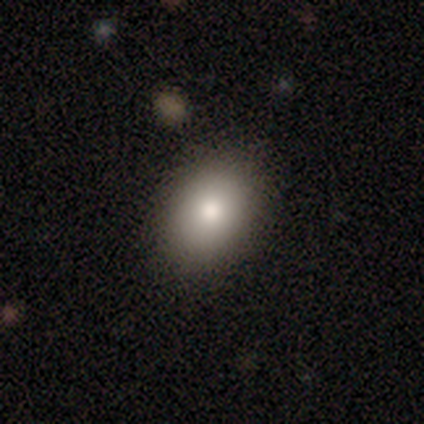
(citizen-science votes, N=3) Smooth or featured?
  - smooth: 67% *
  - featured or disk: 33%
  - star or artifact: 0%
How rounded?
  - round: 50% * (tied)
  - in between: 50% * (tied)
  - cigar-shaped: 0%
Merging?
  - none: 100% *
  - minor disturbance: 0%
  - major disturbance: 0%
  - merger: 0%